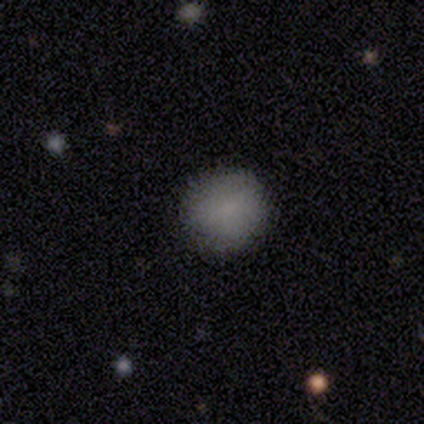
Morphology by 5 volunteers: smooth 100%, featured or disk 0%, star or artifact 0%. Down the decision tree: how rounded — round (80%); merging — none (60%).